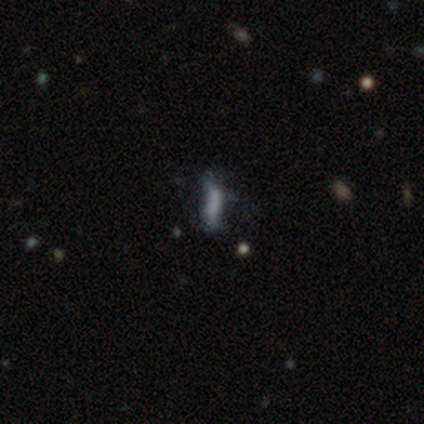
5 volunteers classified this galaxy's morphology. type=smooth (40%, tied with star or artifact); roundness=in between (50%, tied with cigar-shaped); merging=none (33%, tied with minor disturbance and major disturbance).